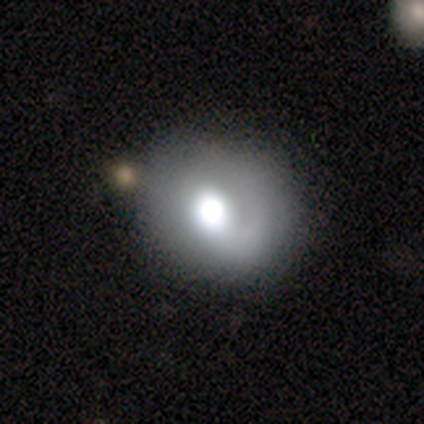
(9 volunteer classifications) smooth 56%, featured or disk 33%, star or artifact 11%. Down the decision tree: how rounded — round (80%); merging — none (75%).